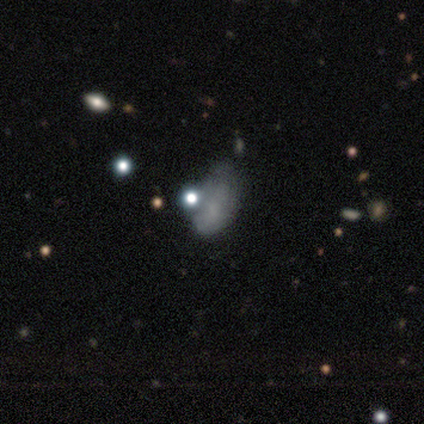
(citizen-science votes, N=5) A smooth galaxy with no disk features (100%) that is in between round and cigar-shaped (100%). Merging: none (40%, tied with merger).